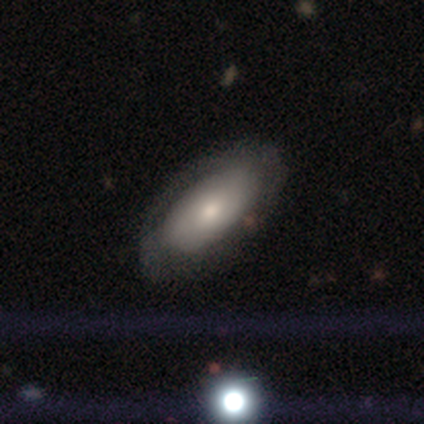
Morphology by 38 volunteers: Volunteers were most divided on "smooth or featured": smooth: 58%, featured or disk: 37%, star or artifact: 5%. More confident: how rounded — in between (100%); merging — none (69%).